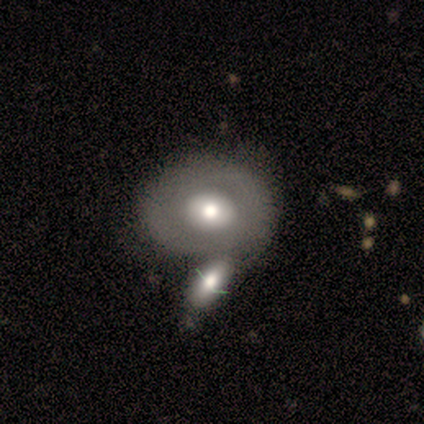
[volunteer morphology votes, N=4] Q: Smooth or featured?
A: featured or disk (75%); runner-up: smooth (25%)
Q: Edge-on disk?
A: no (100%)
Q: Bar?
A: no (100%)
Q: Spiral arms?
A: no (100%)
Q: Bulge size?
A: moderate (100%)
Q: Merging?
A: merger (50%); runner-up: none (25%)